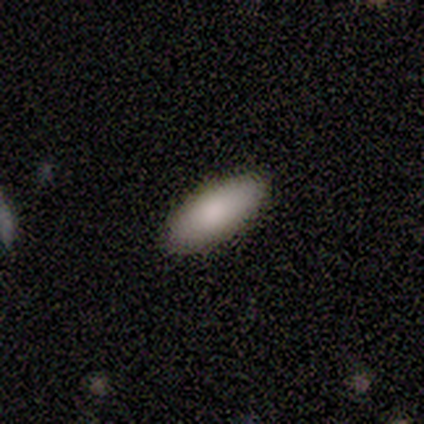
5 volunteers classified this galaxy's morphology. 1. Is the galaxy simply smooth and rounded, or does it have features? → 100% smooth, 0% featured or disk, 0% star or artifact.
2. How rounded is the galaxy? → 80% in between, 20% cigar-shaped, 0% round.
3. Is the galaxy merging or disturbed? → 100% none, 0% minor disturbance, 0% major disturbance, 0% merger.